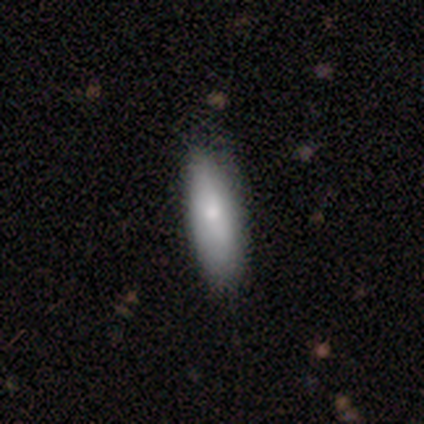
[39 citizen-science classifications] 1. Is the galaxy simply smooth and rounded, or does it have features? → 64% smooth, 31% featured or disk, 5% star or artifact.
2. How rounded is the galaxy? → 52% in between, 48% cigar-shaped, 0% round.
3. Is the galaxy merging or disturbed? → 59% none, 5% minor disturbance, 3% merger, 0% major disturbance.